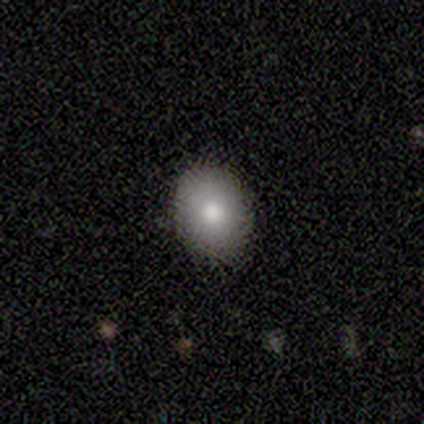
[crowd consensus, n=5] smooth-or-featured: smooth: 40% (tied) | star or artifact: 40% (tied) | featured or disk: 20%
  how-rounded: in between: 100% | round: 0% | cigar-shaped: 0%
  merging: none: 67% | minor disturbance: 33% | major disturbance: 0% | merger: 0%